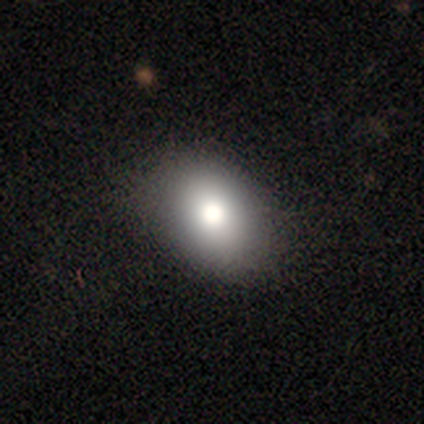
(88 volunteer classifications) Smooth or featured?
  - smooth: 70% *
  - featured or disk: 17%
  - star or artifact: 12%
How rounded?
  - in between: 82% *
  - round: 15%
  - cigar-shaped: 3%
Merging?
  - none: 82% *
  - minor disturbance: 14%
  - major disturbance: 3%
  - merger: 1%